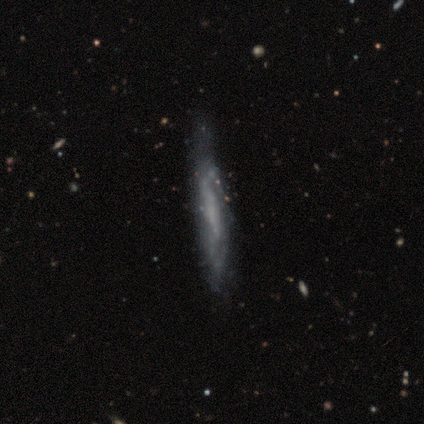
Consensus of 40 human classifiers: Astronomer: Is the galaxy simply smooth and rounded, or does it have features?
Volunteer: featured or disk — 90%.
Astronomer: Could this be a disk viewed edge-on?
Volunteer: yes — 61% (runner-up: no, 39%).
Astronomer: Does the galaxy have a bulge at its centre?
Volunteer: none — 82%.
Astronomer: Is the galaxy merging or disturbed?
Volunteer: none — 50%.